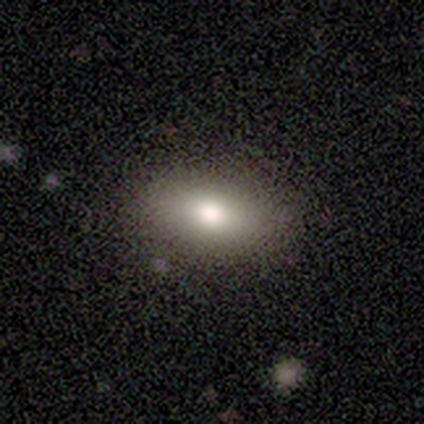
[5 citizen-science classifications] smooth-or-featured: smooth: 80% | featured or disk: 20% | star or artifact: 0%
  how-rounded: in between: 100% | round: 0% | cigar-shaped: 0%
  merging: none: 100% | minor disturbance: 0% | major disturbance: 0% | merger: 0%